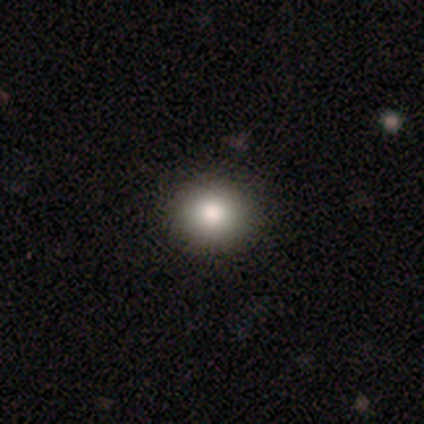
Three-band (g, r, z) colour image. It shows a smooth galaxy with no disk features (75%) that is round (81%). Merging: none (86%).